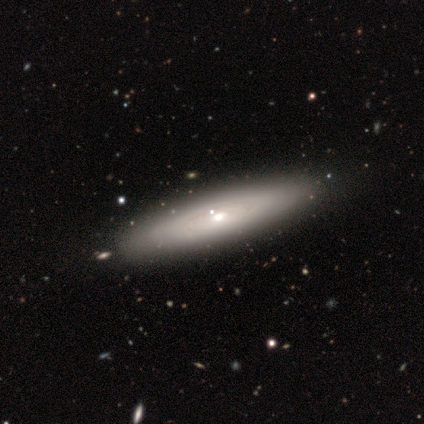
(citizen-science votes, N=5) Q: Smooth or featured?
A: smooth (80%); runner-up: star or artifact (20%)
Q: How rounded?
A: cigar-shaped (100%)
Q: Merging?
A: none (75%); runner-up: merger (25%)